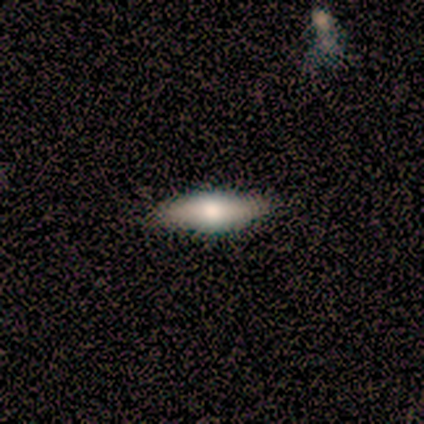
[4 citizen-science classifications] Smooth or featured? smooth (75%)
How rounded? in between (67%)
Merging? none (100%)